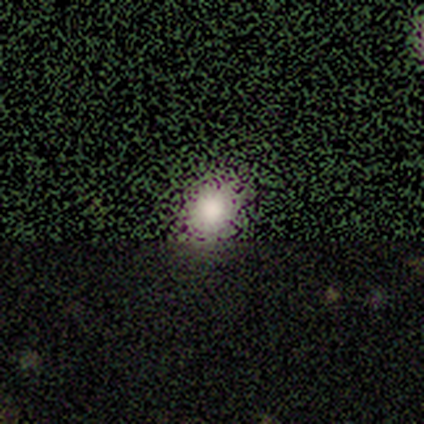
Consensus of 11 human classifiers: Q: Smooth or featured?
A: star or artifact (55%); runner-up: smooth (45%)